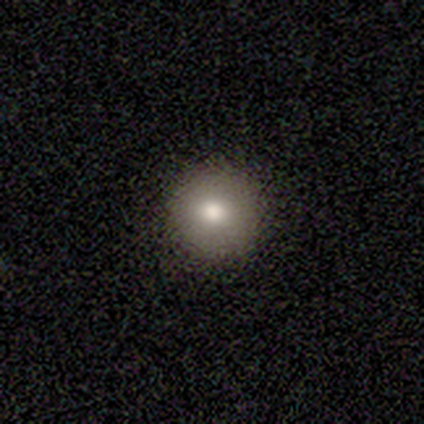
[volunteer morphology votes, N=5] smooth-or-featured: smooth: 100% | featured or disk: 0% | star or artifact: 0%
  how-rounded: round: 100% | in between: 0% | cigar-shaped: 0%
  merging: none: 80% | minor disturbance: 20% | major disturbance: 0% | merger: 0%